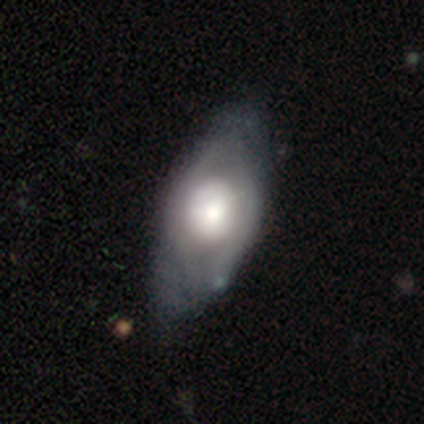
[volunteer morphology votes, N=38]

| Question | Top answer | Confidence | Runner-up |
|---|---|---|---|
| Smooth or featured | smooth | 55% | featured or disk (42%) |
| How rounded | in between | 86% | cigar-shaped (10%) |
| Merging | none | 51% | minor disturbance (24%) |